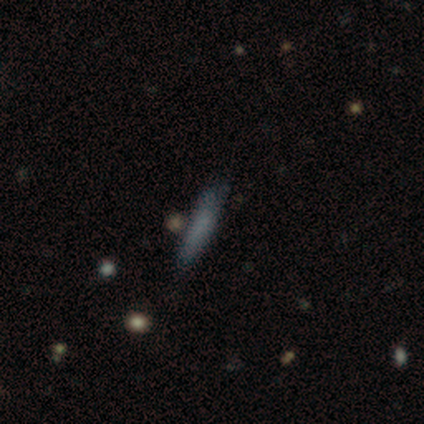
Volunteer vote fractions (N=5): Morphology: type=smooth (100%); roundness=cigar-shaped (100%); merging=none (60%).